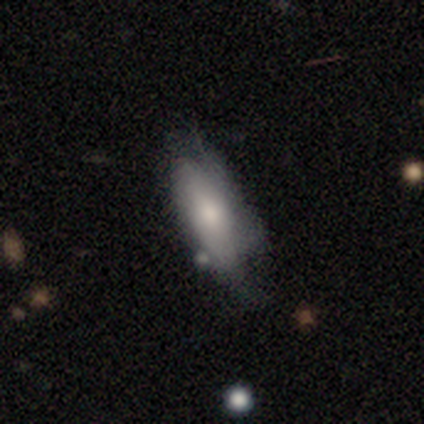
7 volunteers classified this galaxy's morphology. smooth-or-featured: featured or disk: 57% | smooth: 29% | star or artifact: 14%
  disk-edge-on: no: 100% | yes: 0%
    bar: no: 75% | weak: 25% | strong: 0%
    has-spiral-arms: yes: 50% (tied) | no: 50% (tied)
      spiral-winding: tight: 50% (tied) | loose: 50% (tied) | medium: 0%
      spiral-arm-count: 2: 50% (tied) | can't tell: 50% (tied) | 1: 0% | 3: 0% | 4: 0% | more than 4: 0%
    bulge-size: moderate: 50% | large: 25% | small: 25% | dominant: 0% | none: 0%
  merging: minor disturbance: 50% (tied) | major disturbance: 50% (tied) | none: 0% | merger: 0%